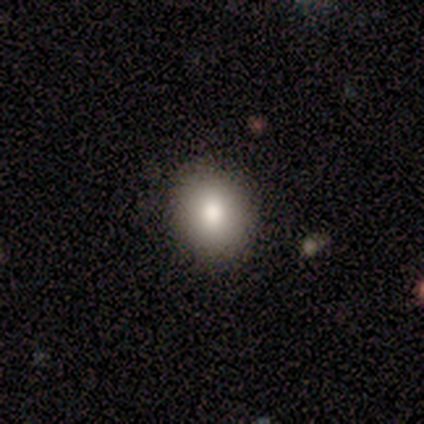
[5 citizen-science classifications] A smooth galaxy with no disk features (80%) that is in between round and cigar-shaped (75%).

Vote fractions:
- Smooth or featured? smooth: 80% / featured or disk: 20% / star or artifact: 0%
- How rounded? in between: 75% / round: 25% / cigar-shaped: 0%
- Merging? none: 100% / minor disturbance: 0% / major disturbance: 0% / merger: 0%